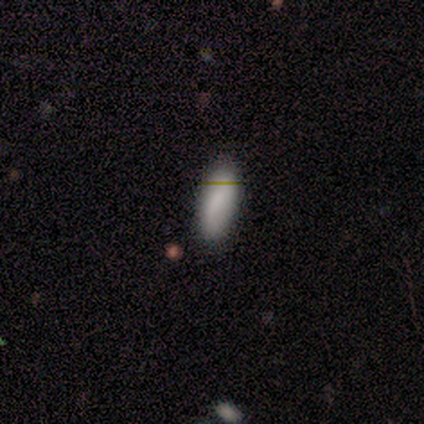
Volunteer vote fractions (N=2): Smooth or featured? smooth (100%)
How rounded? in between (50%, tied with cigar-shaped)
Merging? none (100%)